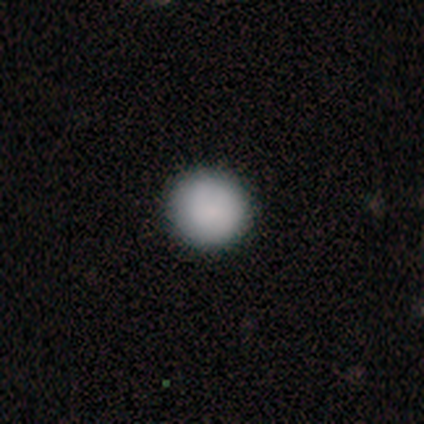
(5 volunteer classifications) A smooth galaxy with no disk features (80%) that is round (100%).

Vote fractions:
- Smooth or featured? smooth: 80% / star or artifact: 20% / featured or disk: 0%
- How rounded? round: 100% / in between: 0% / cigar-shaped: 0%
- Merging? none: 100% / minor disturbance: 0% / major disturbance: 0% / merger: 0%